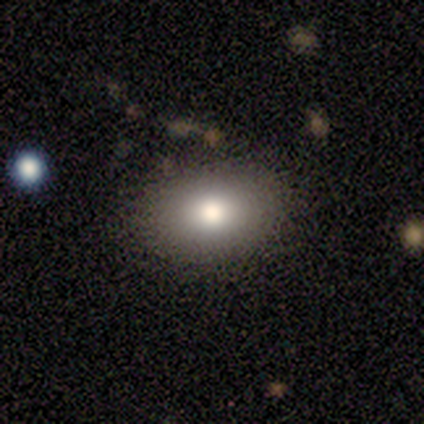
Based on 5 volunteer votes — Q: Smooth or featured?
A: smooth (60%); runner-up: featured or disk (20%)
Q: How rounded?
A: in between (67%); runner-up: round (33%)
Q: Merging?
A: none (100%)